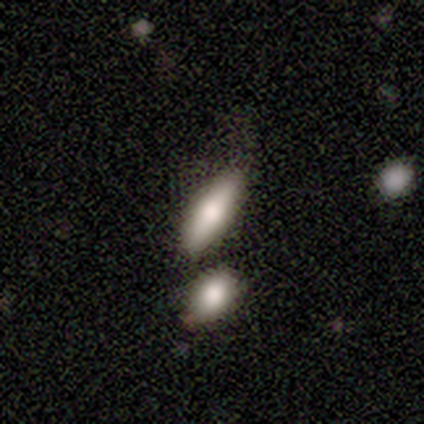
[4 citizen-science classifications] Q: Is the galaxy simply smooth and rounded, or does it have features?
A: smooth — 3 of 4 (75%).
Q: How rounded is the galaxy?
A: in between — 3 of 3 (100%).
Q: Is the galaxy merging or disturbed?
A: none — 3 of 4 (75%).